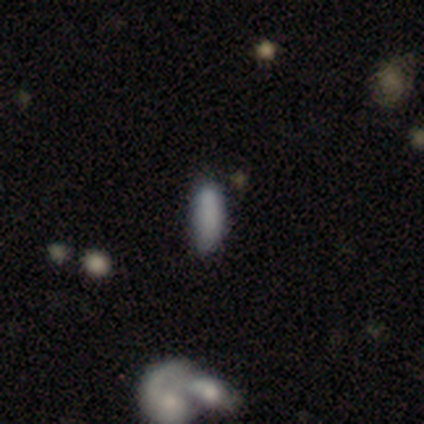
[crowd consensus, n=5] Smooth or featured? smooth (80%)
How rounded? in between (50%, tied with cigar-shaped)
Merging? none (50%)